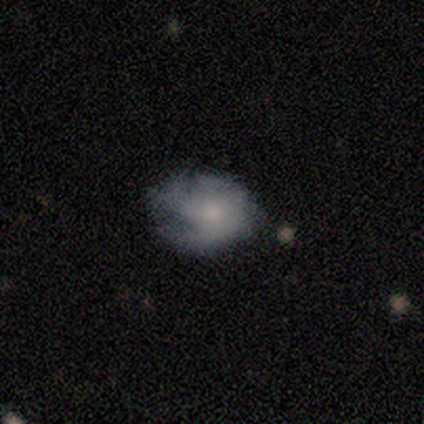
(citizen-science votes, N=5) smooth-or-featured: smooth: 60% | featured or disk: 40% | star or artifact: 0%
  how-rounded: in between: 100% | round: 0% | cigar-shaped: 0%
  merging: none: 60% | minor disturbance: 40% | major disturbance: 0% | merger: 0%